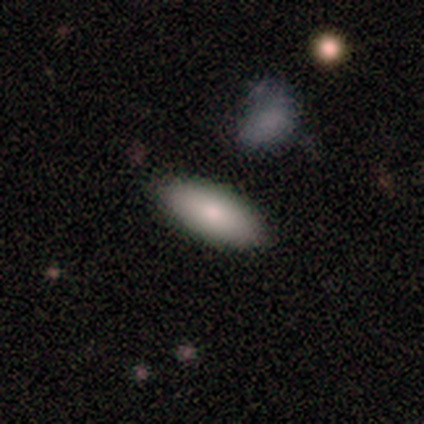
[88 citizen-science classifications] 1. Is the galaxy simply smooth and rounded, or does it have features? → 82% smooth, 11% star or artifact, 7% featured or disk.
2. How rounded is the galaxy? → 72% in between, 25% cigar-shaped, 3% round.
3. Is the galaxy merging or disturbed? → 82% none, 13% minor disturbance, 4% major disturbance, 1% merger.